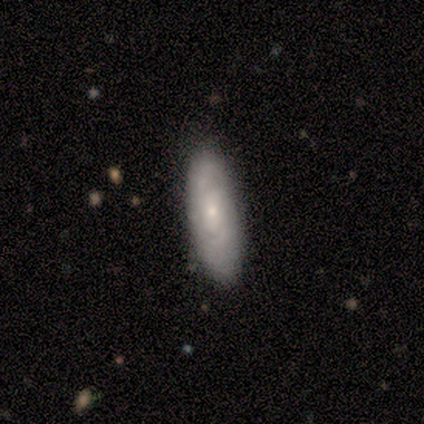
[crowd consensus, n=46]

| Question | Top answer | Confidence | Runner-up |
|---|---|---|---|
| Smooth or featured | featured or disk | 63% | smooth (33%) |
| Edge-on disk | no | 90% | yes (10%) |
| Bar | no | 81% | weak (19%) |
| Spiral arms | yes | 81% | no (19%) |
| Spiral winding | tight | 57% | medium (33%) |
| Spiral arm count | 2 | 52% | can't tell (43%) |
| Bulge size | small | 69% | moderate (31%) |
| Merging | none | 80% | minor disturbance (20%) |